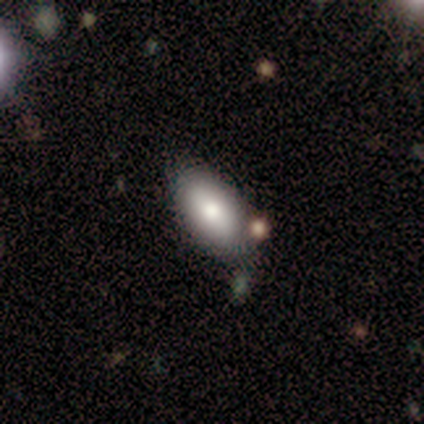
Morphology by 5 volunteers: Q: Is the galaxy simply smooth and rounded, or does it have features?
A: smooth — 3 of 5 (60%).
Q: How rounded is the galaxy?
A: in between — 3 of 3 (100%).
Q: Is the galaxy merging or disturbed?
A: none — 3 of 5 (60%).